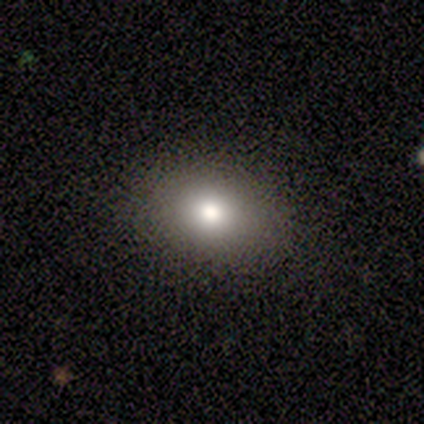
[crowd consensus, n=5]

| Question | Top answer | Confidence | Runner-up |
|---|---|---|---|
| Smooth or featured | smooth | 100% | — |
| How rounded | in between | 100% | — |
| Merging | none | 100% | — |